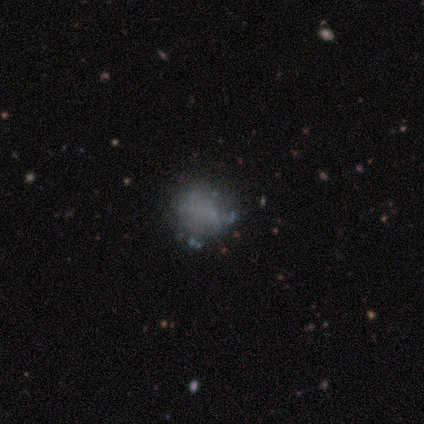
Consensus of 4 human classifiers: A smooth galaxy with no disk features (50%, tied with featured or disk) that is round (100%). Merging: none (75%).